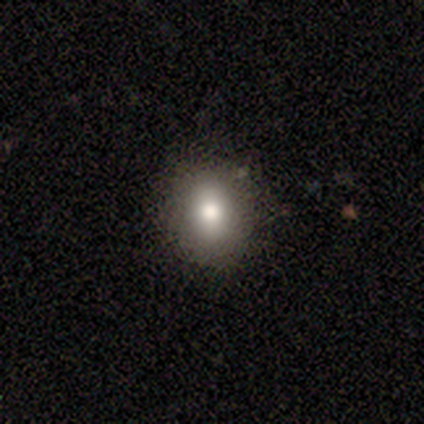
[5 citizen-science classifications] smooth 80%, featured or disk 20%, star or artifact 0%. Down the decision tree: how rounded — round (75%); merging — none (100%).